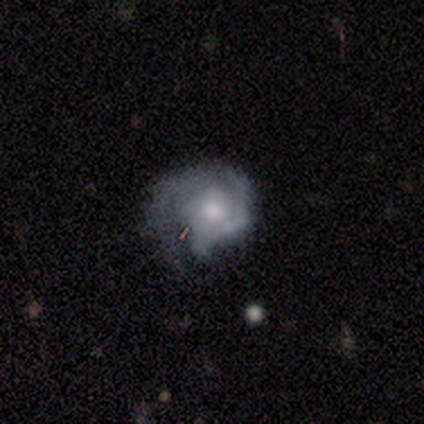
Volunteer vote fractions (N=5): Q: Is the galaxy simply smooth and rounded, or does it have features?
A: featured or disk — 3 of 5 (60%).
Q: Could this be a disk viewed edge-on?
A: no — 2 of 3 (67%).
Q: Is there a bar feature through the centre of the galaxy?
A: weak — 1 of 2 (50%, tied with no).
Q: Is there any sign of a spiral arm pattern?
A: yes — 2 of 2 (100%).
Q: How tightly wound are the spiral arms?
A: tight — 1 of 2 (50%, tied with loose).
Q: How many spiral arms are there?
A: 2 — 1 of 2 (50%, tied with 3).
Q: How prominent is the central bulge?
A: moderate — 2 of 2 (100%).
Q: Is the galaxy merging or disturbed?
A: major disturbance — 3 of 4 (75%).